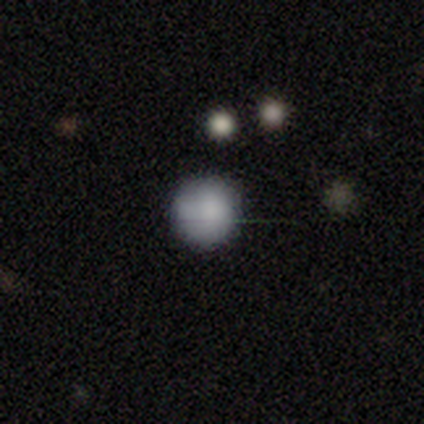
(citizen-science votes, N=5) smooth_or_featured: smooth (p=0.80) [alt: star or artifact p=0.20]
how_rounded: round (p=0.75) [alt: in between p=0.25]
merging: none (p=1.00)